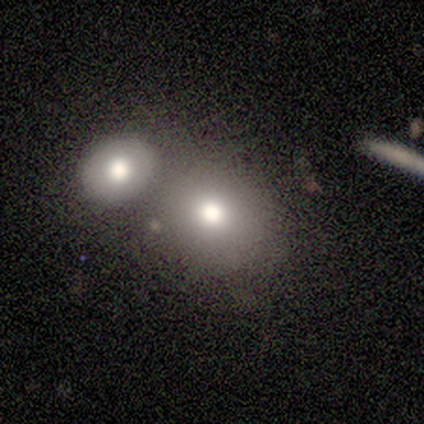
smooth-or-featured: smooth: 80% | featured or disk: 20% | star or artifact: 0%
  how-rounded: round: 75% | in between: 25% | cigar-shaped: 0%
  merging: merger: 60% | none: 40% | minor disturbance: 0% | major disturbance: 0%